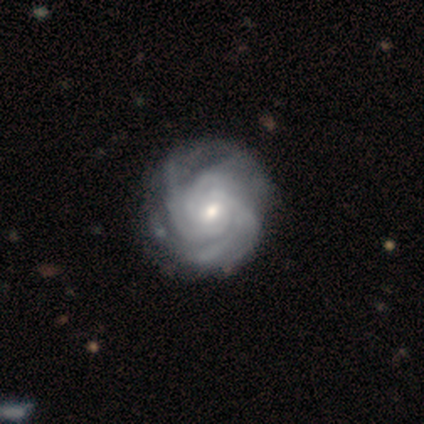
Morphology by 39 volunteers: smooth_or_featured: featured or disk (p=0.92) [alt: smooth p=0.05]
disk_edge_on: no (p=1.00)
bar: no (p=0.72) [alt: weak p=0.28]
has_spiral_arms: yes (p=1.00)
spiral_winding: tight (p=0.81) [alt: medium p=0.19]
spiral_arm_count: 4 (p=0.31) [tied with: can't tell p=0.31]
bulge_size: small (p=0.56) [alt: moderate p=0.42]
merging: none (p=0.53) [alt: minor disturbance p=0.13]